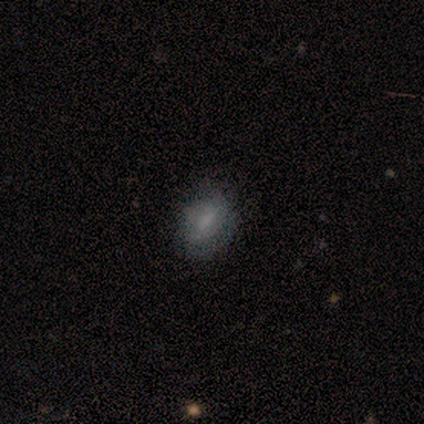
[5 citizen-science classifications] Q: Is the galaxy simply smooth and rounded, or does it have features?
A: smooth — 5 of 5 (100%).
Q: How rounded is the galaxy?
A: in between — 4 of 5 (80%).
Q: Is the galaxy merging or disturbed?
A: none — 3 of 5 (60%).